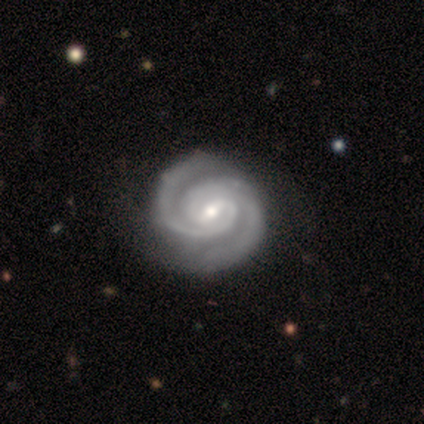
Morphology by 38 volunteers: This is clearly a featured or disk galaxy (97%). It is clearly not viewed edge-on (100%). Bar: likely weak (65%). Spiral arm pattern: clearly yes (100%). Spiral arm count: clearly 2 (92%). Spiral winding: clearly tight (84%). Central bulge: likely moderate (62%). Merging: possibly none (59%).